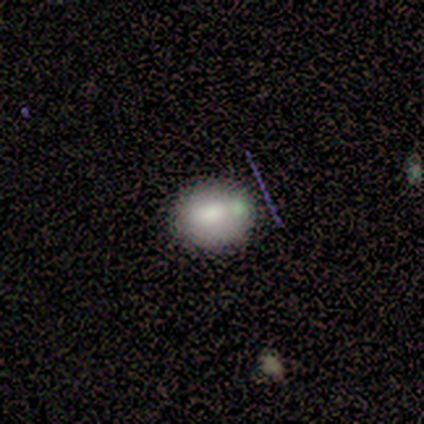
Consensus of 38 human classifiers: Overall: smooth (82%). How rounded: round (74%). Merging: none (84%).